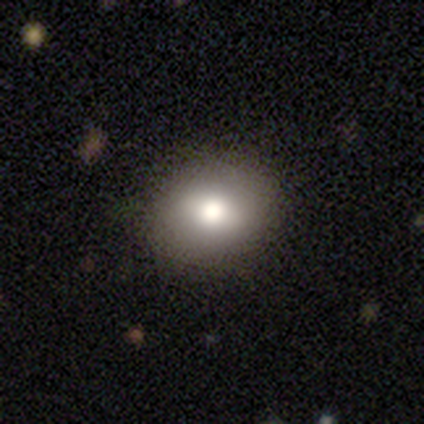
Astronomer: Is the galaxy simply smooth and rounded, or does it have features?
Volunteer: smooth — 82%.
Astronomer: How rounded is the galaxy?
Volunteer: round — 66%.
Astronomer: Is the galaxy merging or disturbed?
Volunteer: none — 89%.